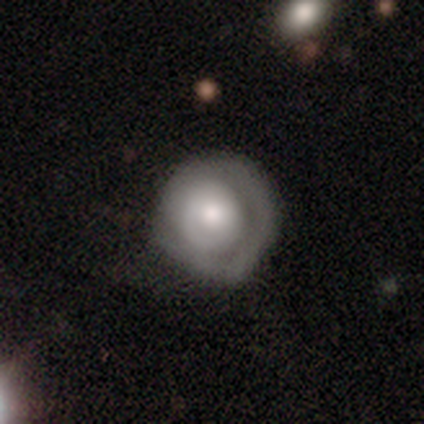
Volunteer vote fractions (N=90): This is possibly a featured or disk galaxy (54%). It is clearly not viewed edge-on (96%). Bar: likely no (77%). Spiral arm pattern: possibly yes (51%). Spiral arm count: possibly 1 (50%). Spiral winding: likely tight (62%). Central bulge: possibly moderate (47%). Merging: likely none (62%).